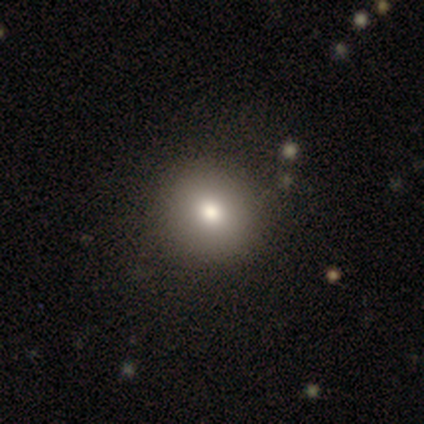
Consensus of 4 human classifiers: Smooth or featured?
  - smooth: 50% * (tied)
  - star or artifact: 50% * (tied)
  - featured or disk: 0%
How rounded?
  - round: 100% *
  - in between: 0%
  - cigar-shaped: 0%
Merging?
  - none: 100% *
  - minor disturbance: 0%
  - major disturbance: 0%
  - merger: 0%